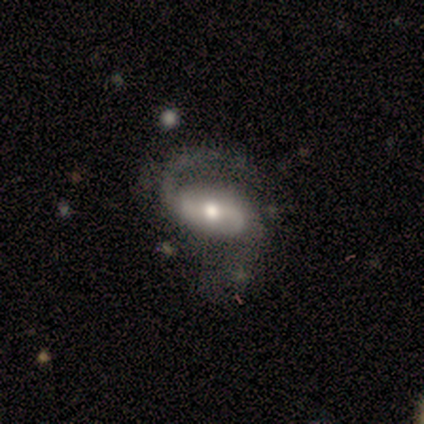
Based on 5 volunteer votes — smooth_or_featured: featured or disk (p=0.80) [alt: smooth p=0.20]
disk_edge_on: no (p=1.00)
bar: strong (p=0.50) [alt: weak p=0.25]
has_spiral_arms: yes (p=1.00)
spiral_winding: medium (p=0.50) [tied with: loose p=0.50]
spiral_arm_count: 2 (p=0.75) [alt: can't tell p=0.25]
bulge_size: moderate (p=0.75) [alt: small p=0.25]
merging: major disturbance (p=0.40) [alt: none p=0.20]